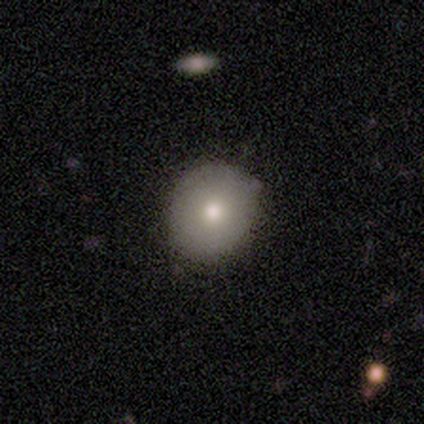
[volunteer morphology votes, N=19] Smooth or featured? 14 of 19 (74%) said smooth. How rounded? 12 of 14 (86%) said round. Merging? 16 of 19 (84%) said none.